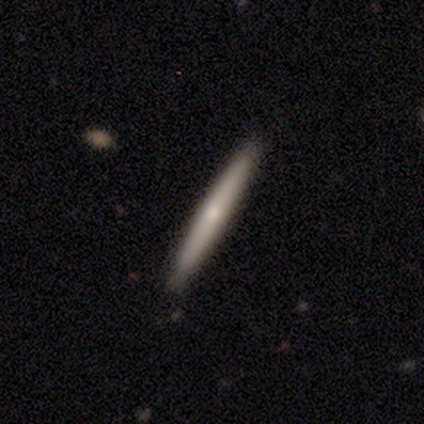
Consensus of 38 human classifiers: This is marginally a smooth galaxy (45%, tied with featured or disk). How rounded: clearly cigar-shaped (100%). Merging: clearly none (88%).